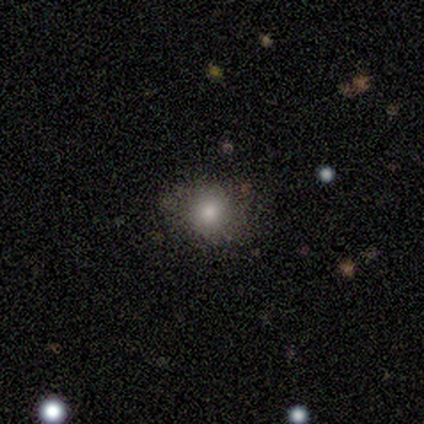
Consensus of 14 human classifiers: Q: Smooth or featured?
A: smooth (79%); runner-up: star or artifact (14%)
Q: How rounded?
A: round (64%); runner-up: in between (36%)
Q: Merging?
A: none (75%); runner-up: minor disturbance (25%)